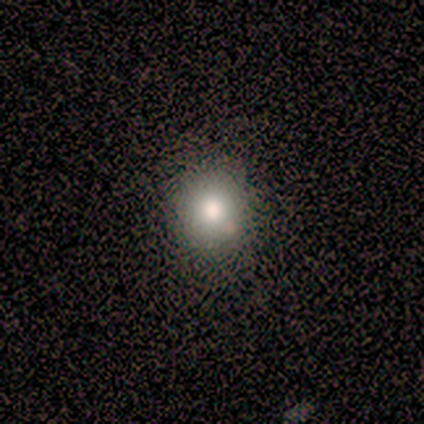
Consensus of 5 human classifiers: Q: Smooth or featured?
A: smooth (40%); tied with: star or artifact (40%)
Q: How rounded?
A: round (100%)
Q: Merging?
A: none (100%)